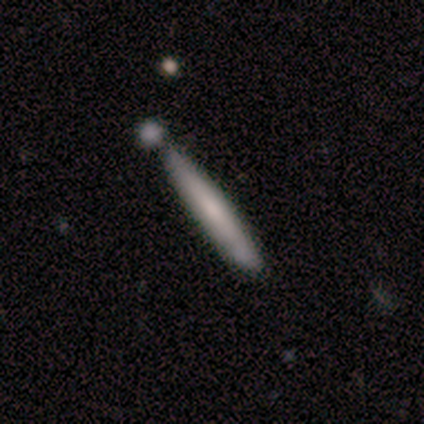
Smooth or featured? smooth (63%)
How rounded? cigar-shaped (96%)
Merging? none (63%)